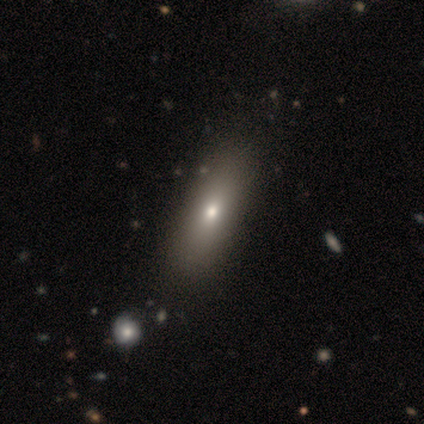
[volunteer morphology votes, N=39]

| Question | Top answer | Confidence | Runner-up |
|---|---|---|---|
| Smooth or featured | smooth | 77% | featured or disk (23%) |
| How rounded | in between | 63% | cigar-shaped (30%) |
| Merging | none | 56% | minor disturbance (5%) |